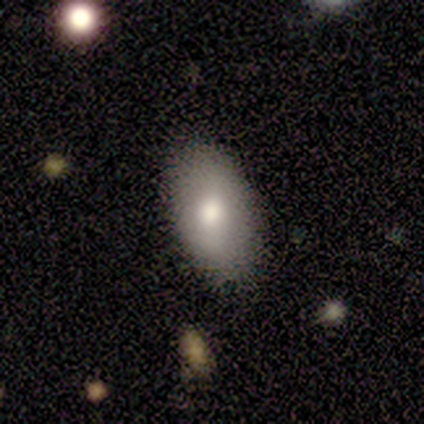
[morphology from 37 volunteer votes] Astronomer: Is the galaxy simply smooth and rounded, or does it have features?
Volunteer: smooth — 76%.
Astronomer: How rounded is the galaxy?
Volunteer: in between — 96%.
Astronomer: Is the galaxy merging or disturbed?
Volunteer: none — 76%.